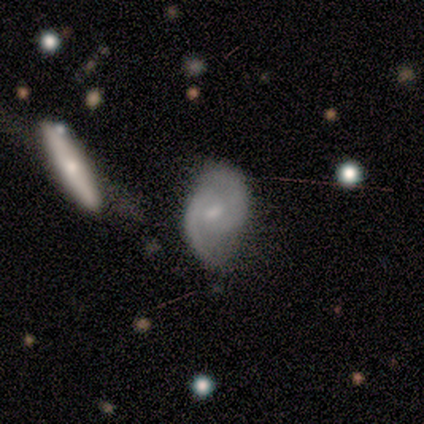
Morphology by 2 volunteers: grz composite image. It shows a featured or disk galaxy (100%) with a weak bar (50%, tied with no), 2 (100%) tight (50%, tied with loose) spiral arms (100%) and a moderate central bulge (50%, tied with small). Merging: none (50%, tied with merger).